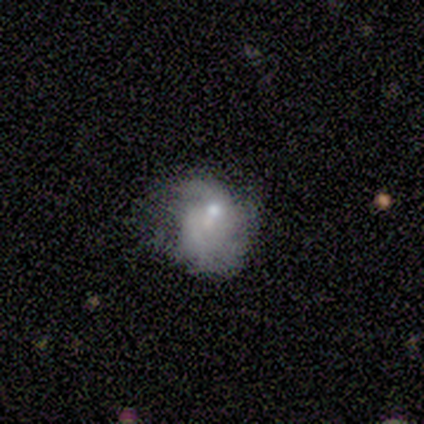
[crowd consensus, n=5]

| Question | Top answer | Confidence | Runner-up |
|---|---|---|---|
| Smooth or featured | smooth | 60% | featured or disk (40%) |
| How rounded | round | 100% | — |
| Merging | minor disturbance | 40% | none (20%) |